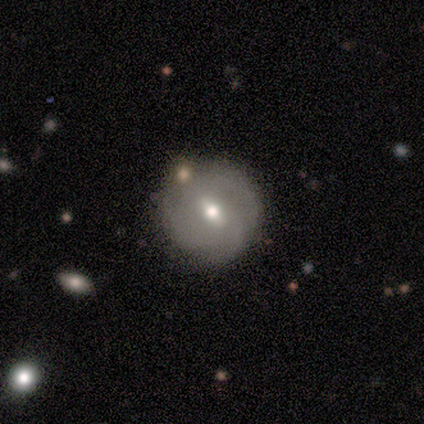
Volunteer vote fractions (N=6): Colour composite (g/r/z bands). It shows a smooth galaxy with no disk features (50%, tied with featured or disk) that is round (100%). Merging: none (67%).